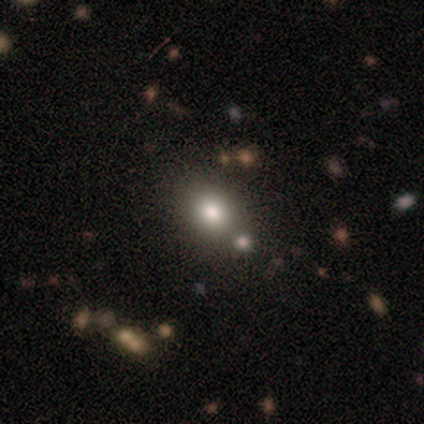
A smooth galaxy with no disk features (70%) that is in between round and cigar-shaped (55%).

Vote fractions:
- Smooth or featured? smooth: 70% / star or artifact: 16% / featured or disk: 14%
- How rounded? in between: 55% / round: 45% / cigar-shaped: 0%
- Merging? none: 75% / minor disturbance: 12% / merger: 11% / major disturbance: 1%